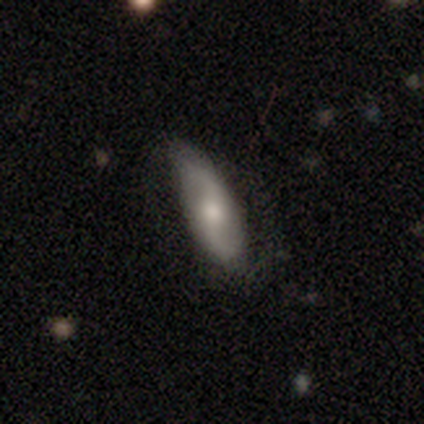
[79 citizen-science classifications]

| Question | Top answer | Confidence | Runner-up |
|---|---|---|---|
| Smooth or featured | featured or disk | 62% | smooth (33%) |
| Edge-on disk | no | 88% | yes (12%) |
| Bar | no | 44% | weak (42%) |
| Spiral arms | yes | 93% | no (7%) |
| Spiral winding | loose | 80% | medium (12%) |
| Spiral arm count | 2 | 95% | 4 (2%) |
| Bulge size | moderate | 56% | small (30%) |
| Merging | none | 35% | minor disturbance (12%) |